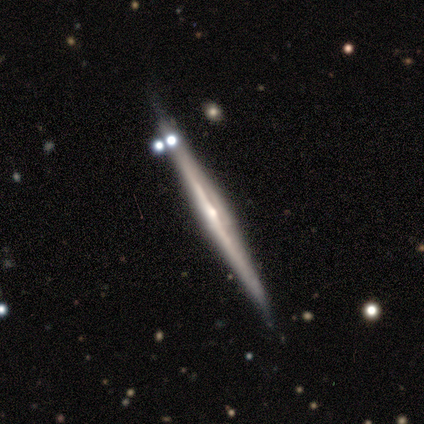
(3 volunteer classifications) Q: Smooth or featured?
A: featured or disk (67%); runner-up: star or artifact (33%)
Q: Edge-on disk?
A: yes (100%)
Q: Edge-on bulge?
A: none (100%)
Q: Merging?
A: none (100%)